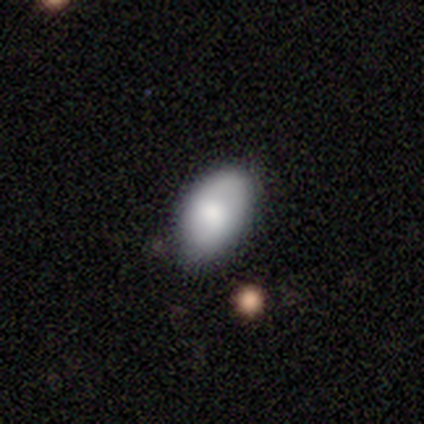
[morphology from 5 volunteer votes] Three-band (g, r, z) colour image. It shows a smooth galaxy with no disk features (80%) that is in between round and cigar-shaped (100%). Merging: none (50%, tied with minor disturbance).